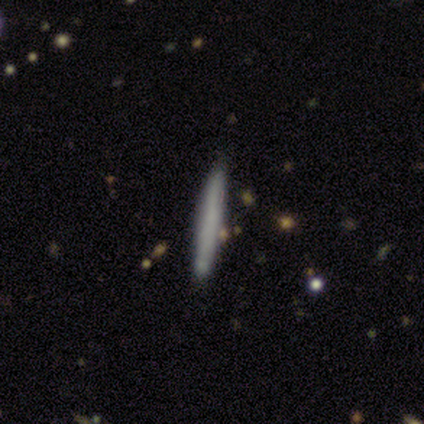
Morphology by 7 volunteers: Volunteers were most divided on "smooth or featured" (2-way tie): smooth: 43%, featured or disk: 43%, star or artifact: 14%. More confident: how rounded — cigar-shaped (100%); merging — none (83%).